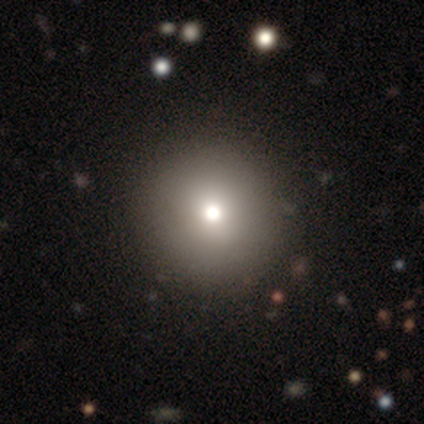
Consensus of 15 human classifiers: Q: Smooth or featured?
A: smooth (67%); runner-up: star or artifact (20%)
Q: How rounded?
A: round (100%)
Q: Merging?
A: none (100%)